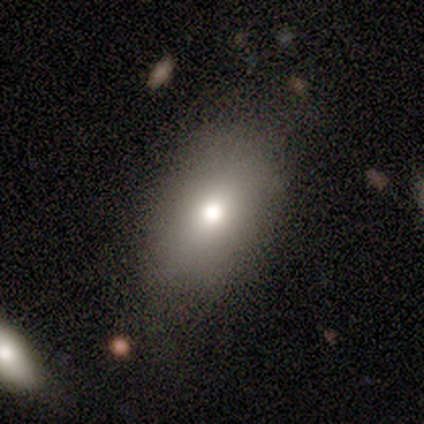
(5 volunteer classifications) Morphology: type=smooth (80%); roundness=in between (100%); merging=none (100%).